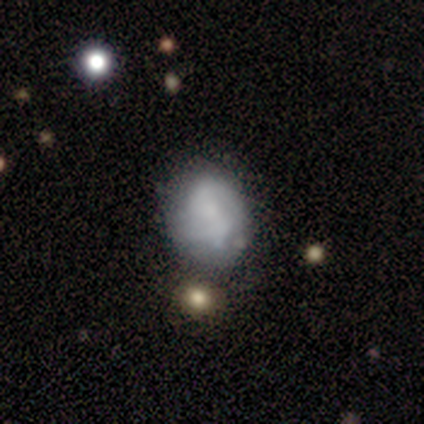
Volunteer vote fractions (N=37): Smooth or featured? 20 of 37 (54%) said featured or disk. Edge-on disk? 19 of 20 (95%) said no. Bar? 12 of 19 (63%) said no. Spiral arms? 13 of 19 (68%) said no. Bulge size? 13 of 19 (68%) said none. Merging? 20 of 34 (59%) said none.